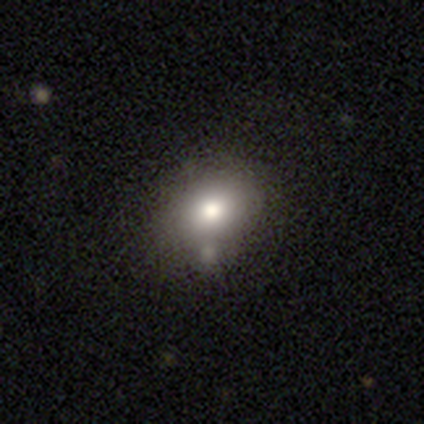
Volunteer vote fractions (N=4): Q: Smooth or featured?
A: smooth (75%); runner-up: star or artifact (25%)
Q: How rounded?
A: in between (100%)
Q: Merging?
A: none (100%)